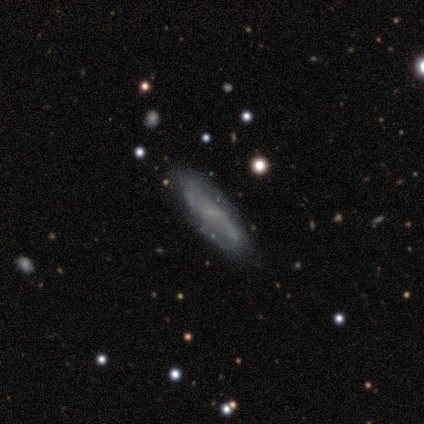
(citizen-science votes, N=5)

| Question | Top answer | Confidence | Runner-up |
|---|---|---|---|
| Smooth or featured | smooth | 60% | featured or disk (20%) |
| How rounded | in between | 67% | cigar-shaped (33%) |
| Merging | none | 100% | — |